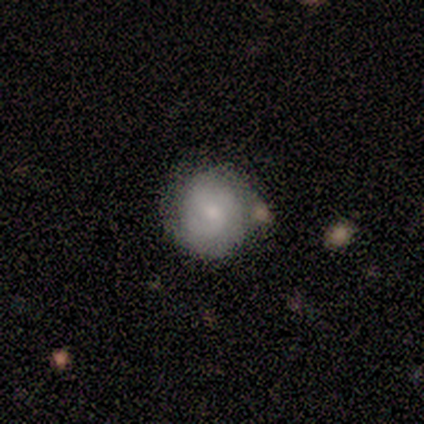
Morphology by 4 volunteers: smooth_or_featured: smooth (p=0.75) [alt: featured or disk p=0.25]
how_rounded: round (p=1.00)
merging: minor disturbance (p=0.50) [alt: none p=0.25]